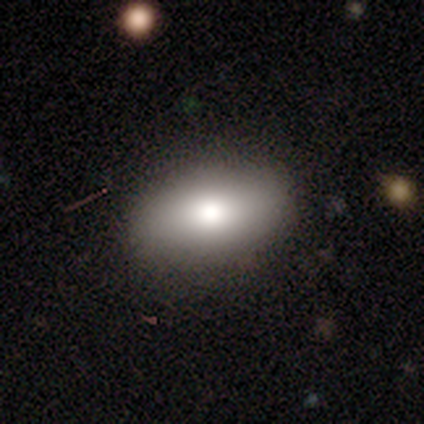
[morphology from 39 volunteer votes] smooth-or-featured: smooth: 82% | featured or disk: 13% | star or artifact: 5%
  how-rounded: in between: 94% | round: 3% | cigar-shaped: 3%
  merging: none: 89% | minor disturbance: 8% | merger: 3% | major disturbance: 0%